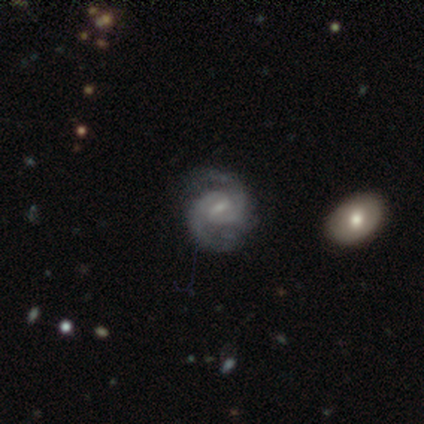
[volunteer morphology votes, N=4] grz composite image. It shows a featured or disk galaxy (100%) with a weak bar (75%), 2 (100%) medium (50%) spiral arms (100%) and a moderate central bulge (75%). Merging: none (50%).